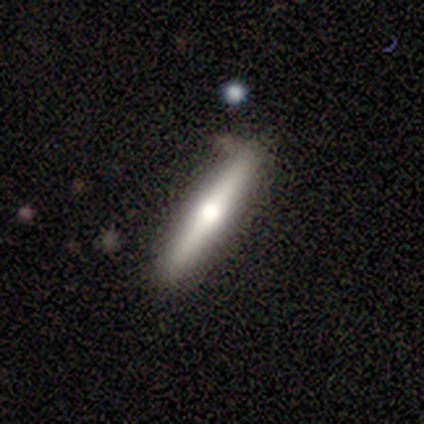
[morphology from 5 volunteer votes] smooth_or_featured: featured or disk (p=0.80) [alt: smooth p=0.20]
disk_edge_on: yes (p=1.00)
edge_on_bulge: rounded (p=1.00)
merging: none (p=0.80) [alt: major disturbance p=0.20]